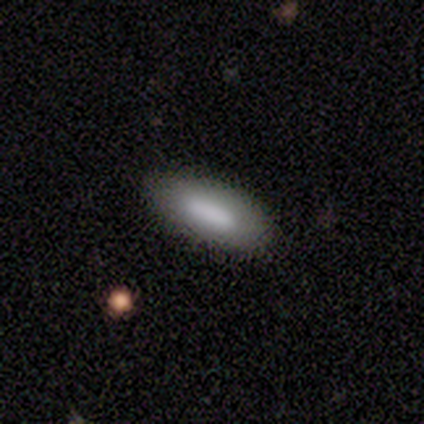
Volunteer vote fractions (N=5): Morphology: type=smooth (100%); roundness=in between (60%); merging=minor disturbance (80%).